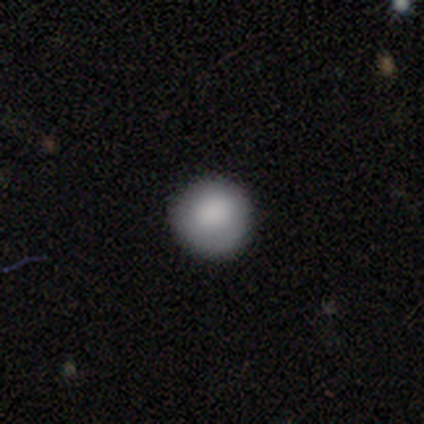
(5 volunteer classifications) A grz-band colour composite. It shows a smooth galaxy with no disk features (80%) that is round (100%). Merging: none (60%).